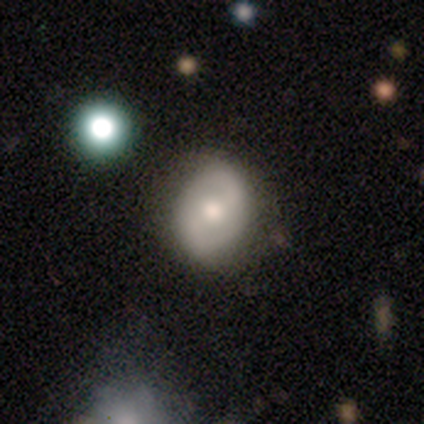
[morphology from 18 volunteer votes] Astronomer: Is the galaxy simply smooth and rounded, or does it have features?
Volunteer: featured or disk — 56% (runner-up: smooth, 33%).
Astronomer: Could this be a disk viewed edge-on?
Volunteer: no — 100%.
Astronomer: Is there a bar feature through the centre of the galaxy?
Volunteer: weak — 60%.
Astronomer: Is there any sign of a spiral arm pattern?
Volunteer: yes — 50%, tied with no at 50%.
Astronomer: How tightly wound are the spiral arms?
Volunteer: medium — 60%.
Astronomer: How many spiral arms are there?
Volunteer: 2 — 80%.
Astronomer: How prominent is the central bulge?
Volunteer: moderate — 60%.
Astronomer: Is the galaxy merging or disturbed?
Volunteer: none — 75%.